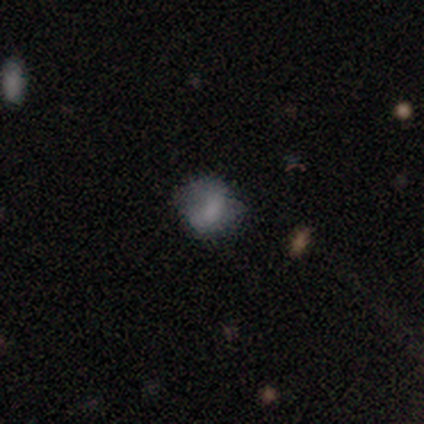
This is clearly a smooth galaxy (80%). How rounded: likely round (75%). Merging: likely none (75%).